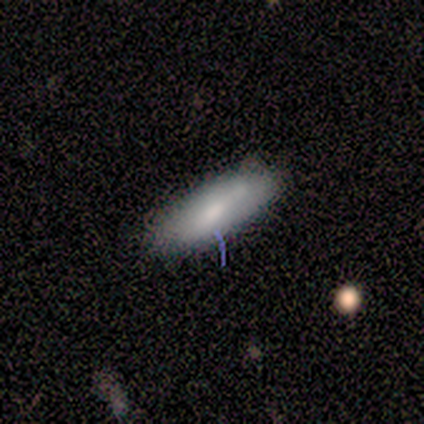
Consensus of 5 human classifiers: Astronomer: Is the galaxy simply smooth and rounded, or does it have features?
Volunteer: smooth — 60% (runner-up: featured or disk, 40%).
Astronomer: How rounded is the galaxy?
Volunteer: cigar-shaped — 67%.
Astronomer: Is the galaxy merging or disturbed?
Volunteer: none — 100%.